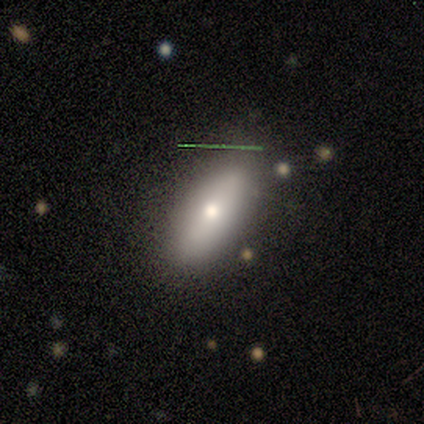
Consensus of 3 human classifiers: Volunteers were most divided on "smooth or featured": smooth: 67%, star or artifact: 33%, featured or disk: 0%. More confident: how rounded — in between (100%); merging — none (100%).